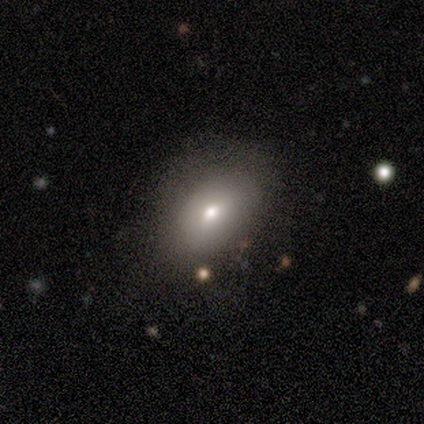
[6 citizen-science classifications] Smooth or featured? smooth (83%)
How rounded? in between (100%)
Merging? none (67%)